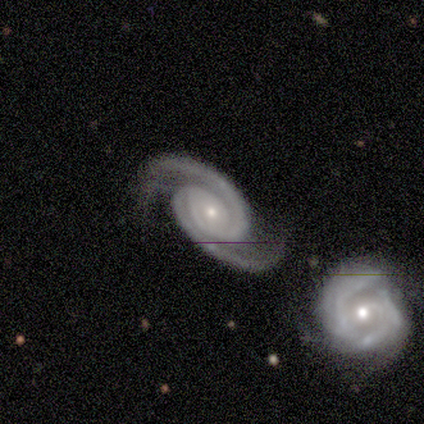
This is possibly a featured or disk galaxy (50%). It is clearly not viewed edge-on (100%). Bar: possibly strong (50%, tied with no). Spiral arm pattern: clearly yes (100%). Spiral arm count: clearly 2 (100%). Spiral winding: clearly medium (100%). Central bulge: clearly small (100%). Merging: clearly none (100%).